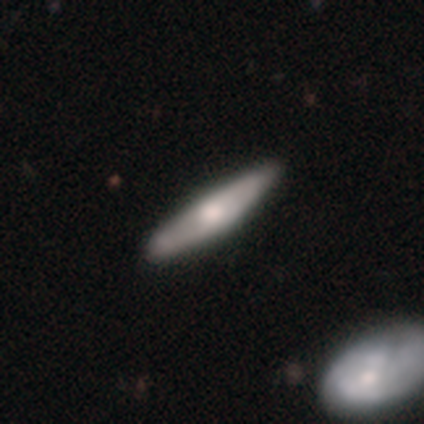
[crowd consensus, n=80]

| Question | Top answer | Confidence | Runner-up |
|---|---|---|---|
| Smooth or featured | smooth | 56% | featured or disk (42%) |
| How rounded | cigar-shaped | 91% | in between (9%) |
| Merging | none | 42% | minor disturbance (8%) |